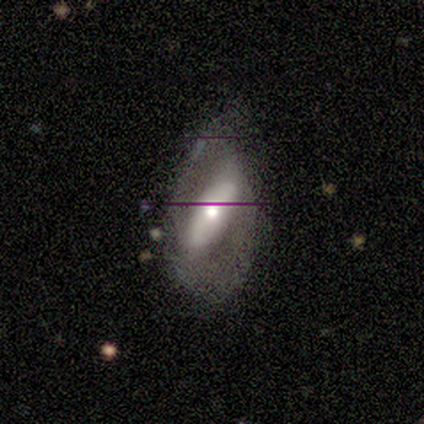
A featured or disk galaxy (60%) with a strong bar (80%), 2 (100%) tight (33%, tied with medium and loose) spiral arms (60%) and a moderate central bulge (60%). Merging: none (56%).